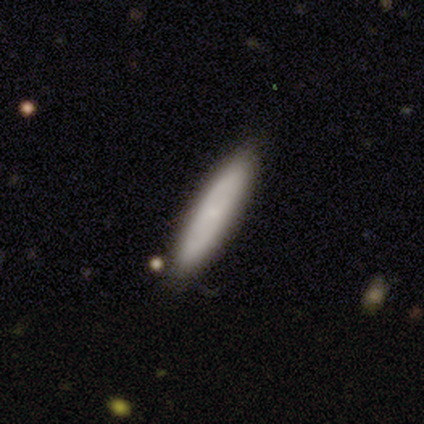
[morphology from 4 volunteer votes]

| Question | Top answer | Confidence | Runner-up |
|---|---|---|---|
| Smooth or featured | smooth | 75% | star or artifact (25%) |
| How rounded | cigar-shaped | 100% | — |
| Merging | none | 100% | — |